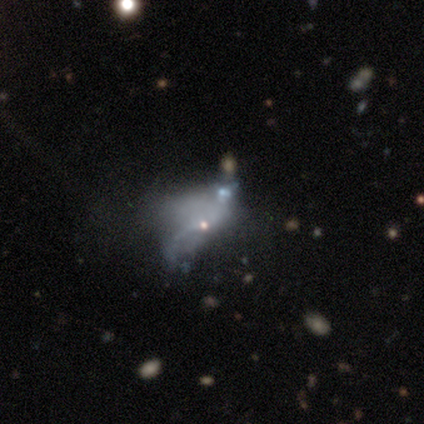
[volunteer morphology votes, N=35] Smooth or featured? featured or disk (60%)
Edge-on disk? no (100%)
Bar? no (86%)
Spiral arms? no (86%)
Bulge size? small (38%, tied with none)
Merging? major disturbance (53%)